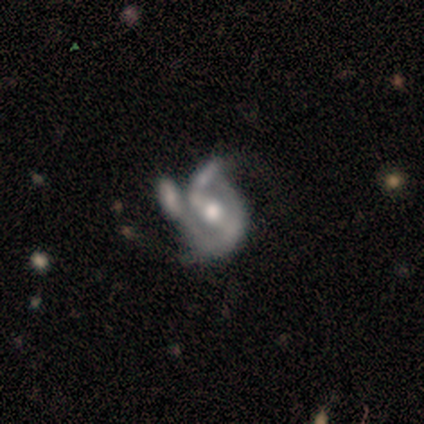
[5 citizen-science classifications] Volunteers were most divided on "bar": no: 50%, strong: 25%, weak: 25%. More confident: edge-on disk — no (100%); spiral arms — yes (100%); smooth or featured — featured or disk (80%); merging — major disturbance (80%); spiral winding — medium (75%); spiral arm count — 2 (75%); bulge size — moderate (75%).